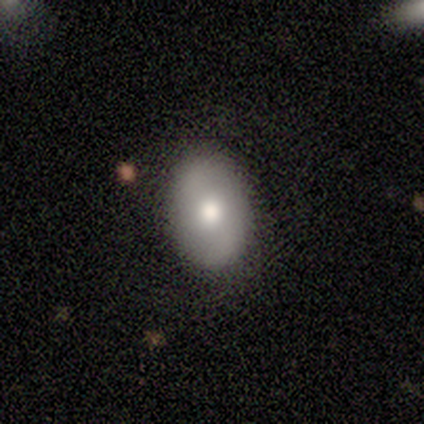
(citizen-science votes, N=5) A smooth galaxy with no disk features (60%) that is in between round and cigar-shaped (67%).

Vote fractions:
- Smooth or featured? smooth: 60% / featured or disk: 40% / star or artifact: 0%
- How rounded? in between: 67% / round: 33% / cigar-shaped: 0%
- Merging? none: 80% / minor disturbance: 20% / major disturbance: 0% / merger: 0%